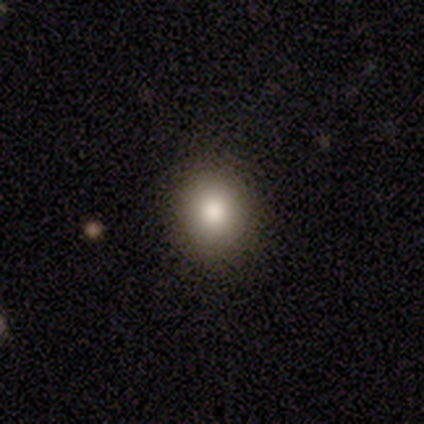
Volunteers were most divided on "merging" (2-way tie): none: 50%, minor disturbance: 50%, major disturbance: 0%, merger: 0%. More confident: how rounded — round (100%); smooth or featured — smooth (80%).